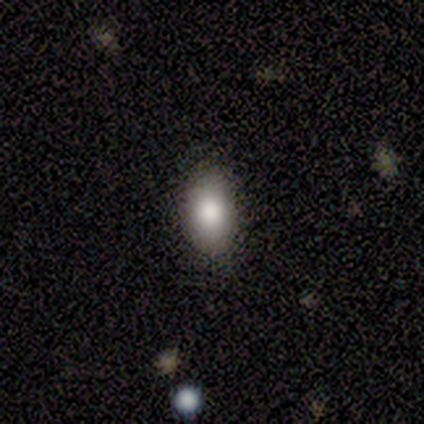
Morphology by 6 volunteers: smooth 83%, star or artifact 17%, featured or disk 0%. Down the decision tree: how rounded — in between (80%); merging — none (80%).